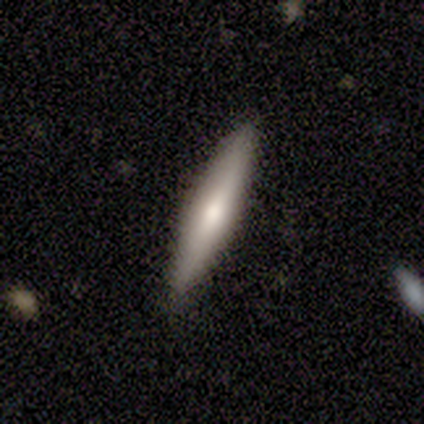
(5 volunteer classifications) smooth-or-featured: smooth: 80% | featured or disk: 20% | star or artifact: 0%
  how-rounded: in between: 50% (tied) | cigar-shaped: 50% (tied) | round: 0%
  merging: none: 80% | minor disturbance: 20% | major disturbance: 0% | merger: 0%